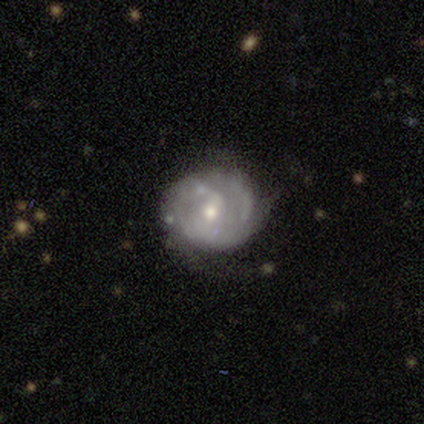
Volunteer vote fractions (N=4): A featured or disk galaxy (75%) with a weak bar (50%, tied with no), tight (100%) spiral arms (50%, tied with no) and a moderate central bulge (100%).

Vote fractions:
- Smooth or featured? featured or disk: 75% / smooth: 25% / star or artifact: 0%
- Edge-on disk? no: 67% / yes: 33%
- Bar? weak: 50% (tied) / no: 50% (tied) / strong: 0%
- Spiral arms? yes: 50% (tied) / no: 50% (tied)
- Spiral winding? tight: 100% / medium: 0% / loose: 0%
- Spiral arm count? can't tell: 100% / 1: 0% / 2: 0% / 3: 0% / 4: 0% / more than 4: 0%
- Bulge size? moderate: 100% / dominant: 0% / large: 0% / small: 0% / none: 0%
- Merging? minor disturbance: 50% / none: 25% / major disturbance: 25% / merger: 0%